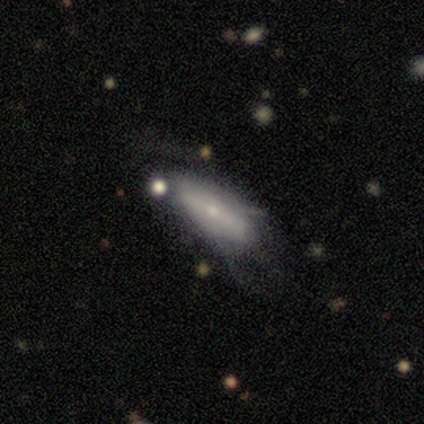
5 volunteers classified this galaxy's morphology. Q: Smooth or featured?
A: featured or disk (60%); runner-up: smooth (40%)
Q: Edge-on disk?
A: yes (67%); runner-up: no (33%)
Q: Edge-on bulge?
A: boxy (50%); tied with: rounded (50%)
Q: Merging?
A: none (40%); tied with: merger (40%)